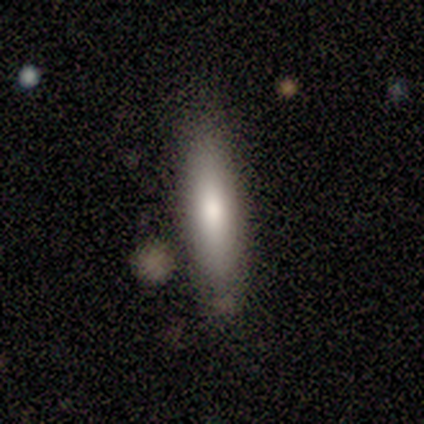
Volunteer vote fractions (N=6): Volunteers were most divided on "how rounded": cigar-shaped: 80%, in between: 20%, round: 0%. More confident: smooth or featured — smooth (83%); merging — none (80%).